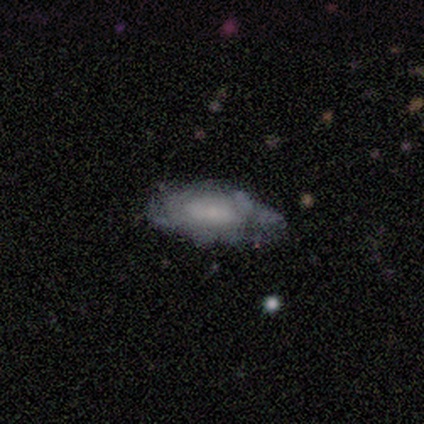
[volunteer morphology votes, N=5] Smooth or featured: featured or disk — 80% (star or artifact — 20%)
Edge-on disk: no — 100%
Bar: weak — 50% (tied with no — 50%)
Spiral arms: yes — 100%
Spiral winding: medium — 50% (tight — 25%)
Spiral arm count: can't tell — 75% (2 — 25%)
Bulge size: small — 50% (moderate — 25%)
Merging: none — 50% (minor disturbance — 25%)